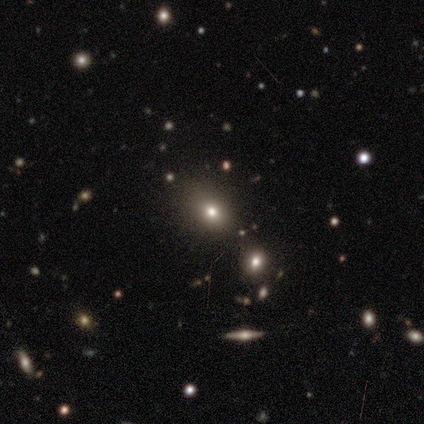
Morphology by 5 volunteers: smooth-or-featured: smooth: 40% (tied) | star or artifact: 40% (tied) | featured or disk: 20%
  how-rounded: in between: 100% | round: 0% | cigar-shaped: 0%
  merging: minor disturbance: 67% | none: 33% | major disturbance: 0% | merger: 0%